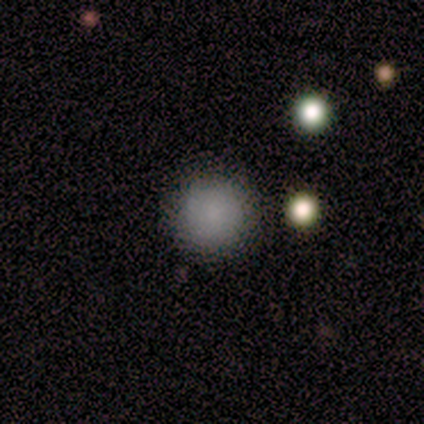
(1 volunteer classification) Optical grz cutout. It shows a smooth galaxy with no disk features (100%) that is round (100%). Merging: none (100%).